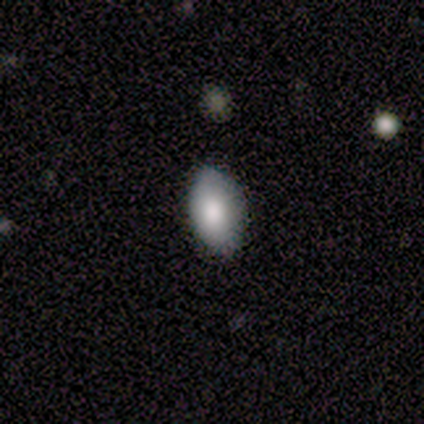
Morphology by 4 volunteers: Smooth or featured: smooth — 100%
How rounded: in between — 100%
Merging: none — 75% (minor disturbance — 25%)